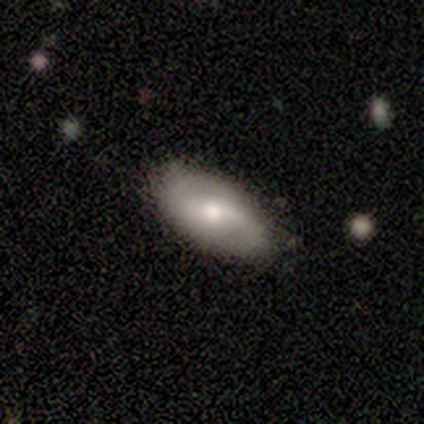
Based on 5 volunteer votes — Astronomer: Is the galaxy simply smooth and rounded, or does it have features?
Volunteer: smooth — 60% (runner-up: featured or disk, 40%).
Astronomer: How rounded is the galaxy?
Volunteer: in between — 100%.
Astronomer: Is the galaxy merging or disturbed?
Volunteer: none — 80%.